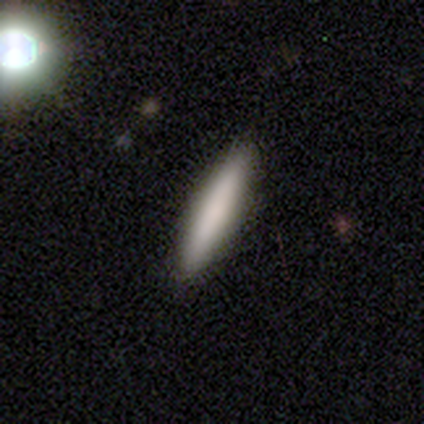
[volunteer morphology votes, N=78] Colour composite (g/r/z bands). It shows a smooth galaxy with no disk features (79%) that is cigar-shaped (87%). Merging: none (42%).